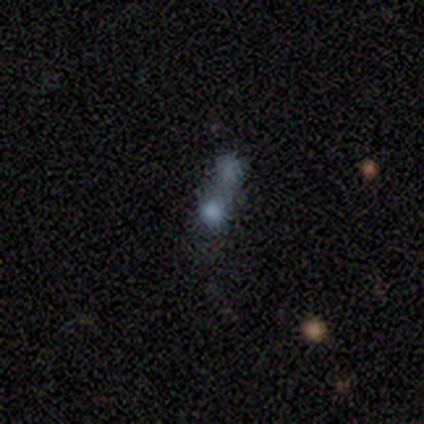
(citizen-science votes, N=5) A smooth galaxy with no disk features (40%, tied with star or artifact) that is round (50%, tied with in between).

Vote fractions:
- Smooth or featured? smooth: 40% (tied) / star or artifact: 40% (tied) / featured or disk: 20%
- How rounded? round: 50% (tied) / in between: 50% (tied) / cigar-shaped: 0%
- Merging? merger: 67% / none: 33% / minor disturbance: 0% / major disturbance: 0%